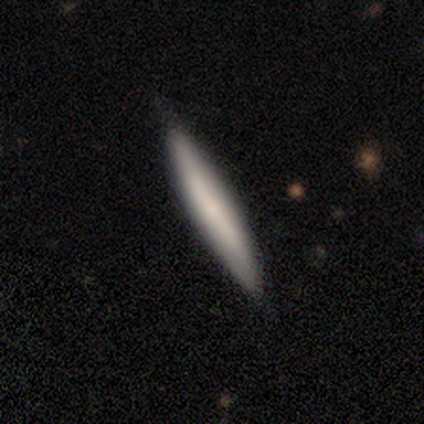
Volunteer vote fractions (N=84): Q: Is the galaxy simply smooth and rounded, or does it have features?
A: smooth — 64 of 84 (76%).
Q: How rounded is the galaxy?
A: cigar-shaped — 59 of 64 (92%).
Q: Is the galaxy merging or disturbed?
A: none — 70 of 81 (86%).